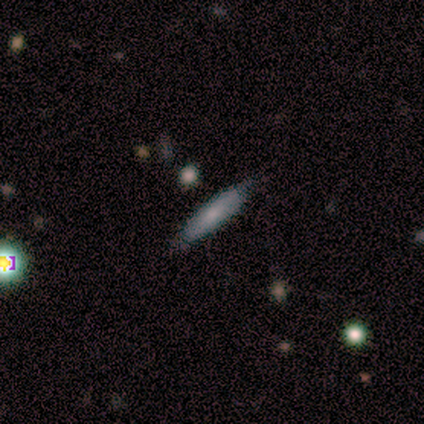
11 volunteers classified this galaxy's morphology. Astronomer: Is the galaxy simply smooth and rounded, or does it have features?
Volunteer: smooth — 73%.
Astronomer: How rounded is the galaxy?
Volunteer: cigar-shaped — 75%.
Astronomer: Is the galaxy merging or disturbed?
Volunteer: none — 100%.